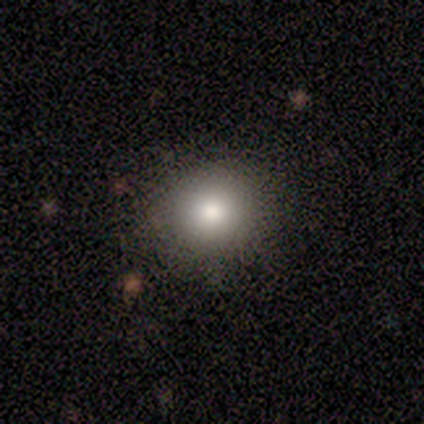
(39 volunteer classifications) This appears to be a smooth galaxy with no disk features (92%) that is round (81%). Merging: none (89%).